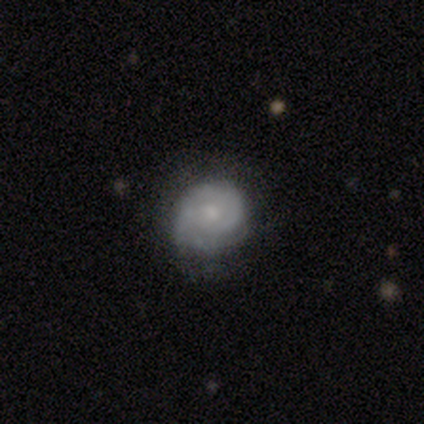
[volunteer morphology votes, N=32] Volunteers were most divided on "merging": none: 48%, minor disturbance: 42%, major disturbance: 10%, merger: 0%. Remaining: edge-on disk — no (100%); spiral arms — yes (83%); bar — no (83%); smooth or featured — featured or disk (75%); spiral winding — tight (75%); spiral arm count — can't tell (45%); bulge size — moderate (42%).